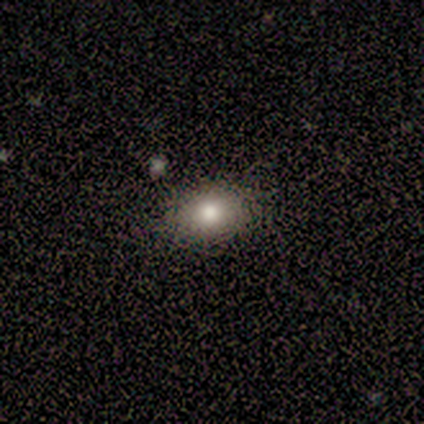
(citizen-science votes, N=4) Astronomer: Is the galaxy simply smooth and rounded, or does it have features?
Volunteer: smooth — 100%.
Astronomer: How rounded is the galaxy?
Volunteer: in between — 75%.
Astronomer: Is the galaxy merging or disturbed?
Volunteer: none — 75%.